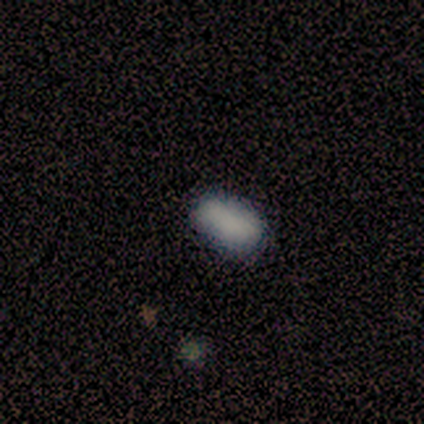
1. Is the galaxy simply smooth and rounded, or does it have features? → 60% smooth, 20% featured or disk, 20% star or artifact.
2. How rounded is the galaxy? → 100% in between, 0% round, 0% cigar-shaped.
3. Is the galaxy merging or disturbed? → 75% none, 25% minor disturbance, 0% major disturbance, 0% merger.